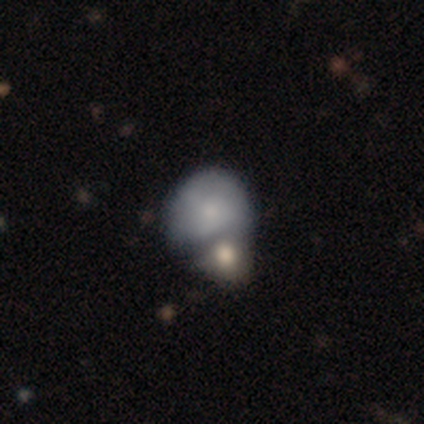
Overall: smooth (78%). How rounded: round (67%; in between 33%). Merging: merger (74%).